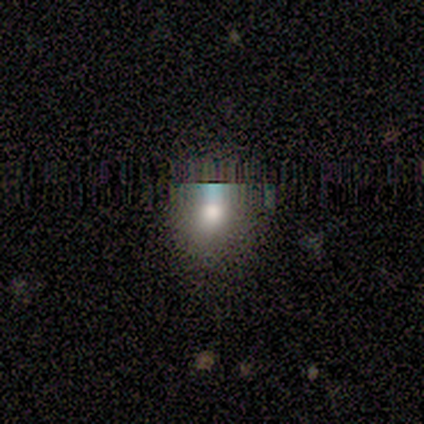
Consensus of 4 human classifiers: Overall: star or artifact (75%).